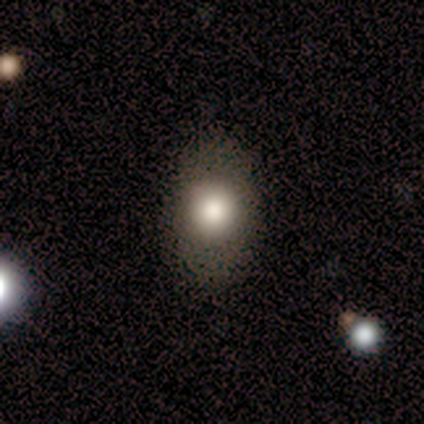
A smooth galaxy with no disk features (100%) that is in between round and cigar-shaped (75%). Merging: none (100%).